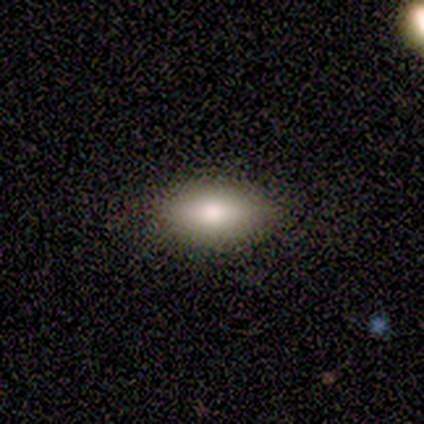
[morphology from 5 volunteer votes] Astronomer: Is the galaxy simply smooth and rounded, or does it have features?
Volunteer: smooth — 60% (runner-up: star or artifact, 40%).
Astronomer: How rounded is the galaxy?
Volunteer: in between — 100%.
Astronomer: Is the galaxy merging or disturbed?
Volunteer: none — 100%.